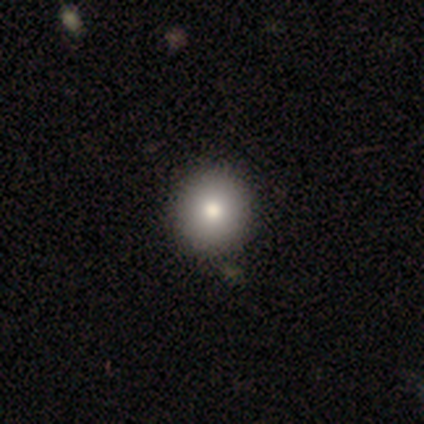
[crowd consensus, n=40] Smooth or featured?
  - smooth: 90% *
  - featured or disk: 10%
  - star or artifact: 0%
How rounded?
  - round: 97% *
  - in between: 3%
  - cigar-shaped: 0%
Merging?
  - none: 68% *
  - merger: 5%
  - minor disturbance: 2%
  - major disturbance: 0%